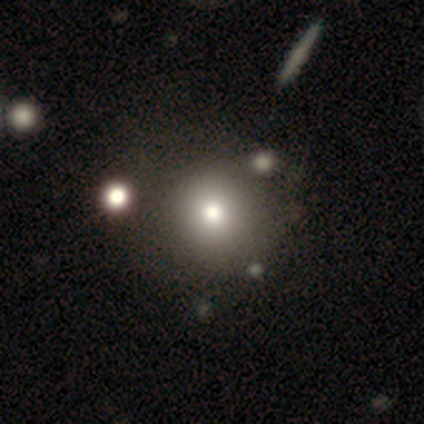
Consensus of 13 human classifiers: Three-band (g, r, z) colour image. It shows a smooth galaxy with no disk features (69%) that is round (100%). Merging: none (73%).